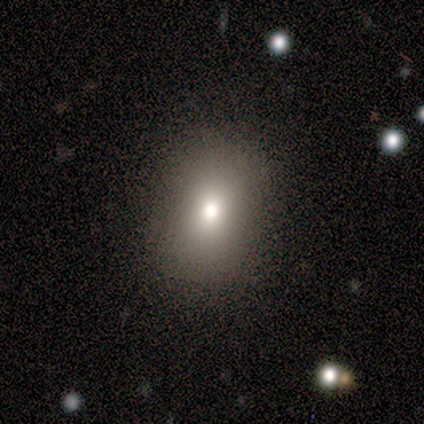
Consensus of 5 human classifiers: Smooth or featured: smooth — 60% (featured or disk — 40%)
How rounded: in between — 67% (round — 33%)
Merging: none — 100%